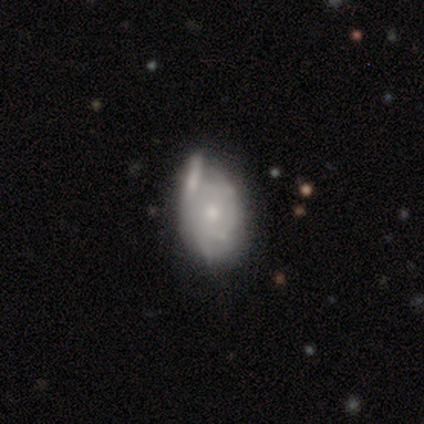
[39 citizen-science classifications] Smooth or featured?
  - featured or disk: 74% *
  - smooth: 23%
  - star or artifact: 3%
Edge-on disk?
  - no: 93% *
  - yes: 7%
Bar?
  - no: 81% *
  - weak: 19%
  - strong: 0%
Spiral arms?
  - yes: 81% *
  - no: 19%
Spiral winding?
  - tight: 50% *
  - medium: 27%
  - loose: 23%
Spiral arm count?
  - can't tell: 55% *
  - 2: 36%
  - 1: 5%
  - 3: 5%
  - 4: 0%
  - more than 4: 0%
Bulge size?
  - small: 59% *
  - moderate: 37%
  - none: 4%
  - dominant: 0%
  - large: 0%
Merging?
  - none: 47% *
  - minor disturbance: 18%
  - major disturbance: 18%
  - merger: 16%